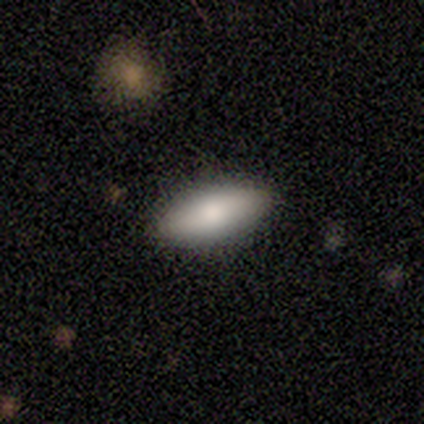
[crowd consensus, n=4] Q: Smooth or featured?
A: smooth (75%); runner-up: featured or disk (25%)
Q: How rounded?
A: in between (100%)
Q: Merging?
A: none (100%)